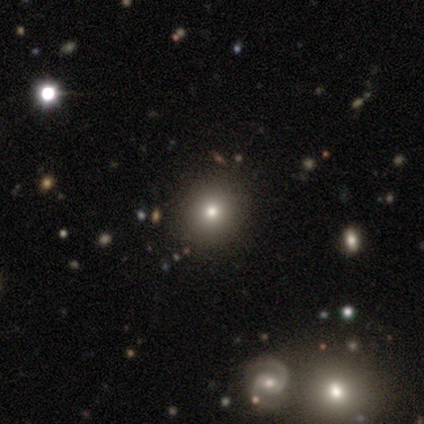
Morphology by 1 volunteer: Smooth or featured? featured or disk (100%)
Edge-on disk? no (100%)
Bar? no (100%)
Spiral arms? no (100%)
Bulge size? none (100%)
Merging? merger (100%)